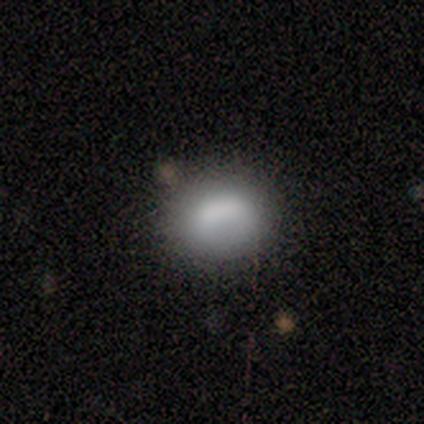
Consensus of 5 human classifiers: Overall: smooth (80%). How rounded: round (50%, tied with in between). Merging: none (100%).